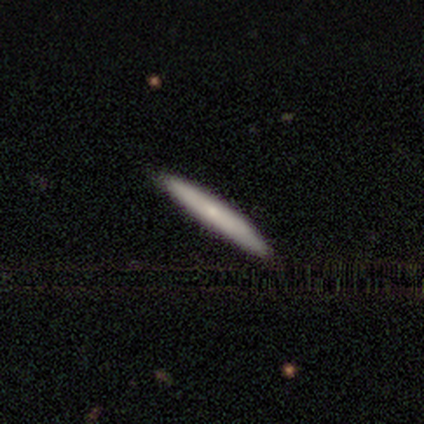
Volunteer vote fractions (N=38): smooth-or-featured: smooth: 71% | featured or disk: 24% | star or artifact: 5%
  how-rounded: cigar-shaped: 100% | round: 0% | in between: 0%
  merging: none: 67% | minor disturbance: 3% | merger: 3% | major disturbance: 0%